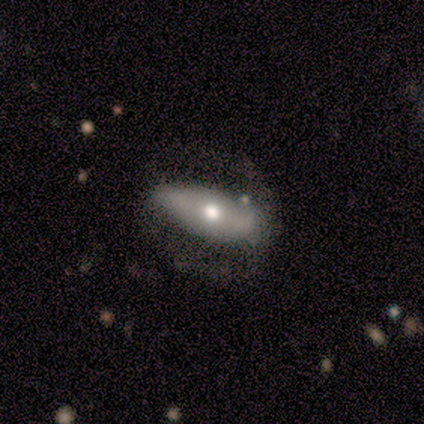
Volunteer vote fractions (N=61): This is possibly a featured or disk galaxy (54%). It is clearly not viewed edge-on (85%). Bar: likely no (71%). Spiral arm pattern: possibly no (57%). Central bulge: likely moderate (75%). Merging: marginally none (43%).